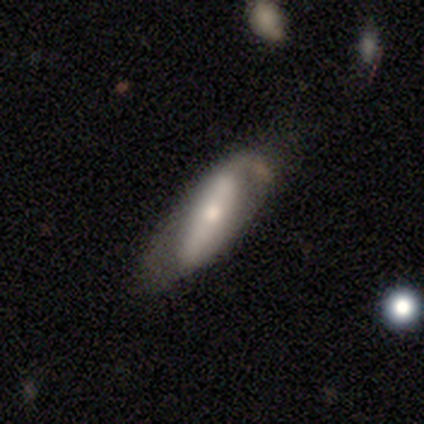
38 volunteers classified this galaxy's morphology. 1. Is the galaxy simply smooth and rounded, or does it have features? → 50% smooth (tied), 50% featured or disk (tied), 0% star or artifact.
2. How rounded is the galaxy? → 79% in between, 21% cigar-shaped, 0% round.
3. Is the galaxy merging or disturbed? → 53% none, 32% minor disturbance, 11% major disturbance, 5% merger.